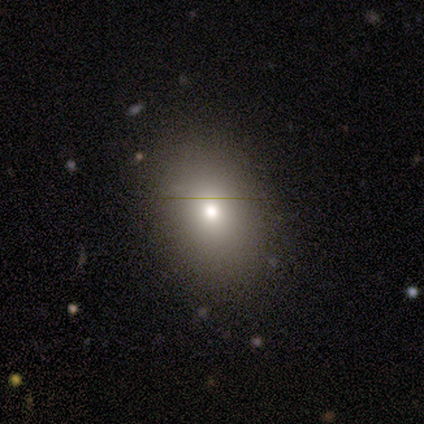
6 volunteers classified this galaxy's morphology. type=smooth (83%); roundness=in between (80%); merging=none (83%).